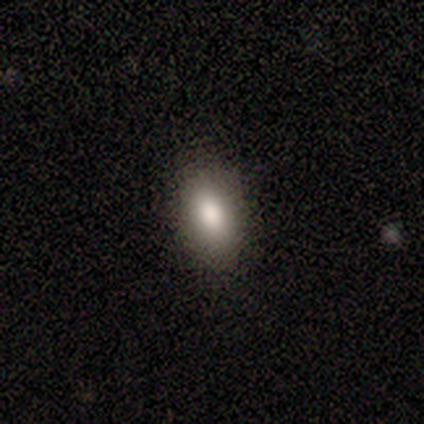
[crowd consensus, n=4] Morphology: type=smooth (100%); roundness=in between (75%); merging=none (100%).